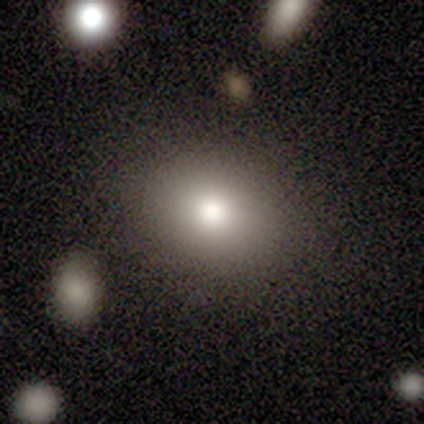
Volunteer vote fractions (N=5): This appears to be a smooth galaxy with no disk features (100%) that is in between round and cigar-shaped (80%). Merging: none (80%).